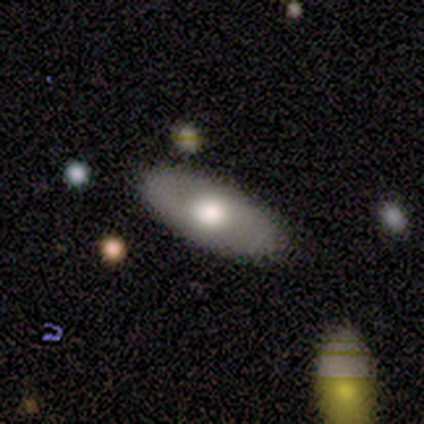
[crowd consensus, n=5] Q: Smooth or featured?
A: smooth (80%); runner-up: star or artifact (20%)
Q: How rounded?
A: in between (100%)
Q: Merging?
A: none (75%); runner-up: minor disturbance (25%)